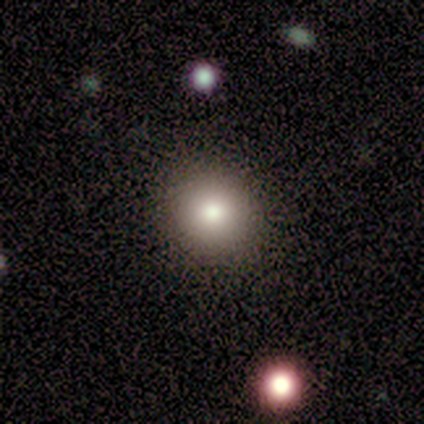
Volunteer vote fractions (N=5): smooth 100%, featured or disk 0%, star or artifact 0%. Down the decision tree: how rounded — in between (60%); merging — none (60%).